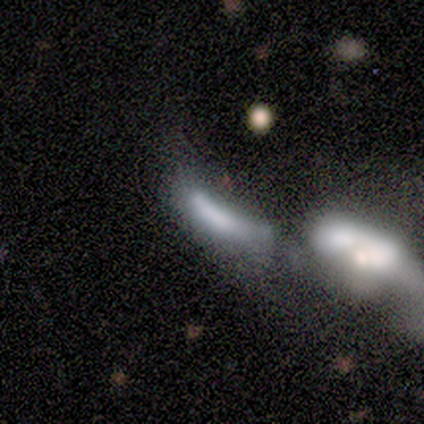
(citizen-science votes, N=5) Smooth or featured: smooth — 80% (star or artifact — 20%)
How rounded: cigar-shaped — 50% (round — 25%)
Merging: major disturbance — 50% (tied with merger — 50%)